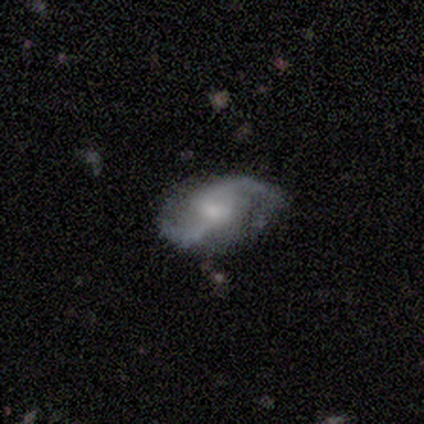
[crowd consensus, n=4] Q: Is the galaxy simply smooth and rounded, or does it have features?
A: featured or disk — 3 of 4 (75%).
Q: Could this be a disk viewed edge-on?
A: no — 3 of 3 (100%).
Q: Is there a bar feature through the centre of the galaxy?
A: no — 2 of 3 (67%).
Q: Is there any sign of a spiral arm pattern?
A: yes — 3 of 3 (100%).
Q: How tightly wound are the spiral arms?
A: medium — 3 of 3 (100%).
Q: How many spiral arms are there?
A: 2 — 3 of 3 (100%).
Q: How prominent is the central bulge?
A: moderate — 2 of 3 (67%).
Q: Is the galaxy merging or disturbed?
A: none — 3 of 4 (75%).